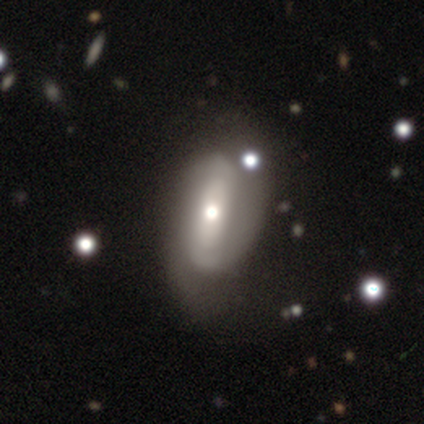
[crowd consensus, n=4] Smooth or featured?
  - featured or disk: 75% *
  - smooth: 25%
  - star or artifact: 0%
Edge-on disk?
  - no: 100% *
  - yes: 0%
Bar?
  - strong: 67% *
  - no: 33%
  - weak: 0%
Spiral arms?
  - yes: 100% *
  - no: 0%
Spiral winding?
  - medium: 100% *
  - tight: 0%
  - loose: 0%
Spiral arm count?
  - 2: 100% *
  - 1: 0%
  - 3: 0%
  - 4: 0%
  - more than 4: 0%
  - can't tell: 0%
Bulge size?
  - moderate: 100% *
  - dominant: 0%
  - large: 0%
  - small: 0%
  - none: 0%
Merging?
  - none: 50% * (tied)
  - major disturbance: 50% * (tied)
  - minor disturbance: 0%
  - merger: 0%